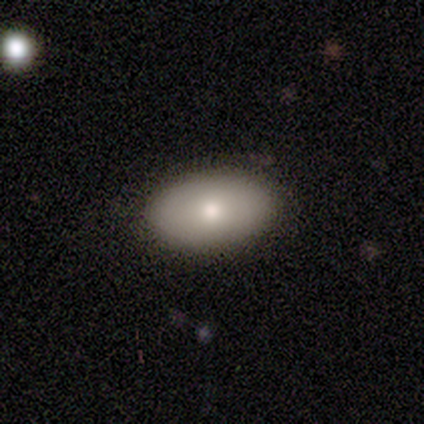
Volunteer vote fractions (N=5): smooth_or_featured: smooth (p=1.00)
how_rounded: in between (p=0.80) [alt: round p=0.20]
merging: none (p=1.00)